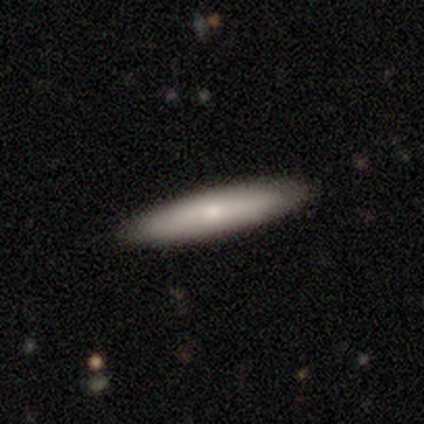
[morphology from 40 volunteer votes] Smooth or featured?
  - smooth: 65% *
  - featured or disk: 28%
  - star or artifact: 8%
How rounded?
  - cigar-shaped: 96% *
  - in between: 4%
  - round: 0%
Merging?
  - none: 89% *
  - minor disturbance: 11%
  - major disturbance: 0%
  - merger: 0%